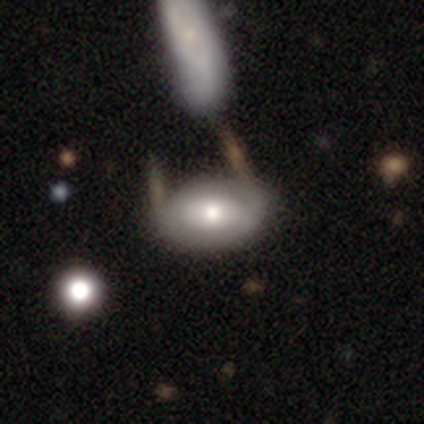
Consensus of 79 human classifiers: A featured or disk galaxy (51%) with no bar (69%), no spiral arms (89%) and a moderate central bulge (71%). Merging: none (26%).